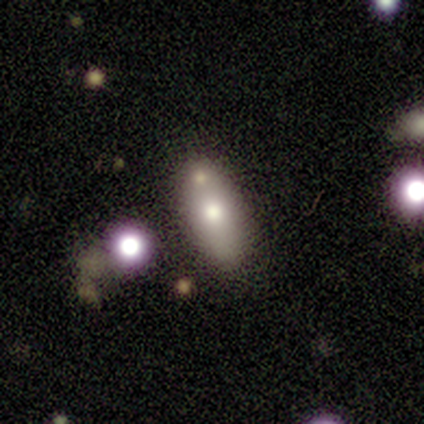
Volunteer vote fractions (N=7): Volunteers were most divided on "smooth or featured": smooth: 57%, star or artifact: 29%, featured or disk: 14%. More confident: merging — none (80%); how rounded — in between (75%).